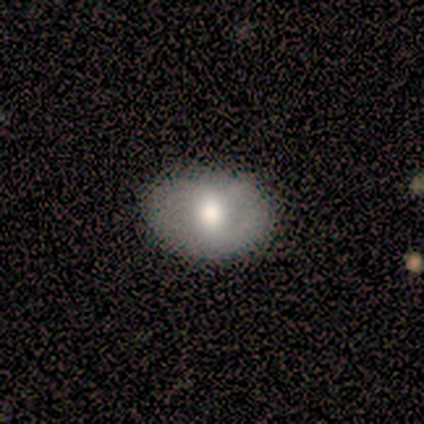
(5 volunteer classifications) Q: Smooth or featured?
A: featured or disk (60%); runner-up: smooth (40%)
Q: Edge-on disk?
A: no (100%)
Q: Bar?
A: no (100%)
Q: Spiral arms?
A: no (100%)
Q: Bulge size?
A: moderate (67%); runner-up: large (33%)
Q: Merging?
A: none (100%)